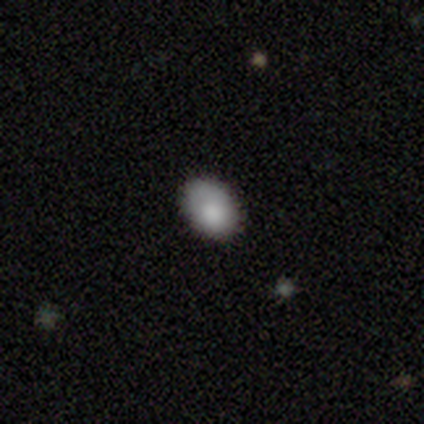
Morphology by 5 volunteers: A smooth galaxy with no disk features (80%) that is in between round and cigar-shaped (100%).

Vote fractions:
- Smooth or featured? smooth: 80% / star or artifact: 20% / featured or disk: 0%
- How rounded? in between: 100% / round: 0% / cigar-shaped: 0%
- Merging? none: 50% (tied) / minor disturbance: 50% (tied) / major disturbance: 0% / merger: 0%